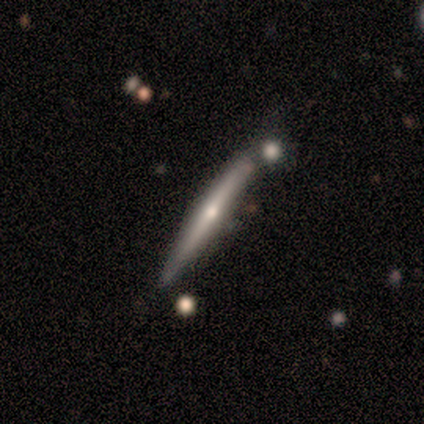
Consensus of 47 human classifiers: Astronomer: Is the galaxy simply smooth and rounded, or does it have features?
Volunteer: featured or disk — 66%.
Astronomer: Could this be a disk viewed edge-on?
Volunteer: yes — 100%.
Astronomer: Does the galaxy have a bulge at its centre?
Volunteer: rounded — 90%.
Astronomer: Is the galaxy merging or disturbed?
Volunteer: none — 68%.